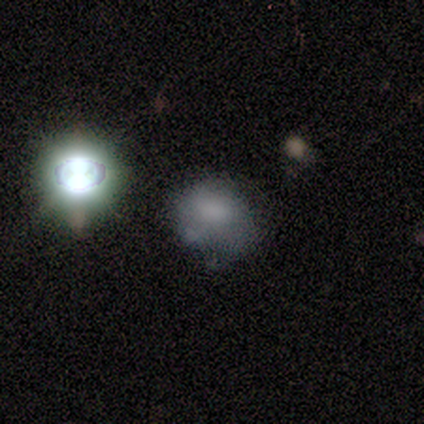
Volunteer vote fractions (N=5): Q: Smooth or featured?
A: smooth (60%); runner-up: featured or disk (20%)
Q: How rounded?
A: round (100%)
Q: Merging?
A: none (50%); tied with: minor disturbance (50%)